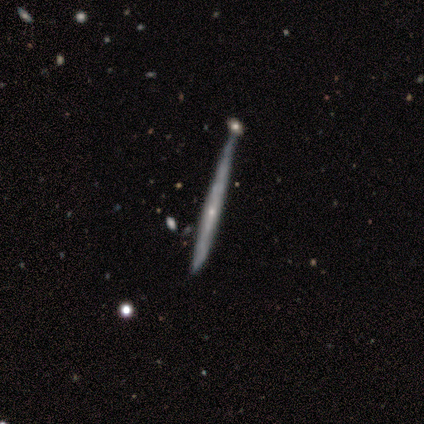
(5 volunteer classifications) smooth_or_featured: featured or disk (p=0.80) [alt: smooth p=0.20]
disk_edge_on: yes (p=1.00)
edge_on_bulge: none (p=0.50) [tied with: rounded p=0.50]
merging: minor disturbance (p=0.60) [alt: none p=0.20]